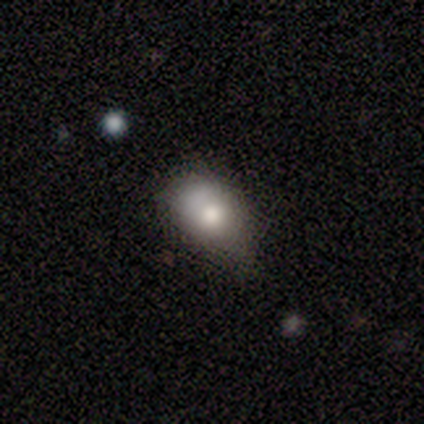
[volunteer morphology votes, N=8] smooth_or_featured: smooth (p=0.75) [alt: featured or disk p=0.12]
how_rounded: in between (p=1.00)
merging: minor disturbance (p=0.57) [alt: none p=0.43]